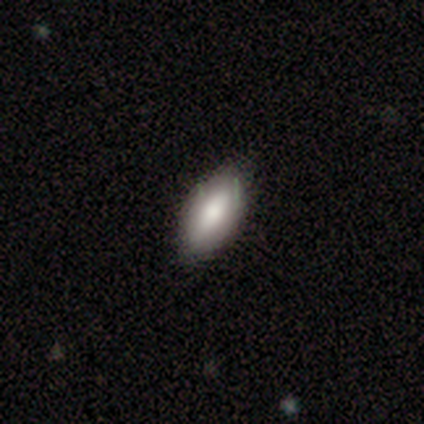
Smooth or featured: smooth — 80% (featured or disk — 20%)
How rounded: in between — 75% (round — 25%)
Merging: none — 100%